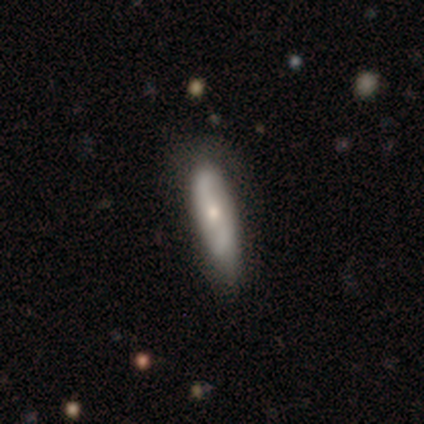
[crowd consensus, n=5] smooth_or_featured: featured or disk (p=0.60) [alt: smooth p=0.40]
disk_edge_on: yes (p=0.67) [alt: no p=0.33]
edge_on_bulge: none (p=0.50) [tied with: rounded p=0.50]
merging: none (p=0.60) [alt: minor disturbance p=0.40]